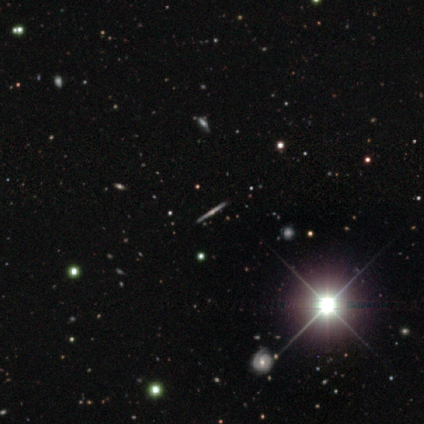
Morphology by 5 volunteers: Volunteers were most divided on "edge-on bulge": rounded: 67%, none: 33%, boxy: 0%. More confident: edge-on disk — yes (100%); merging — none (100%); smooth or featured — featured or disk (60%).